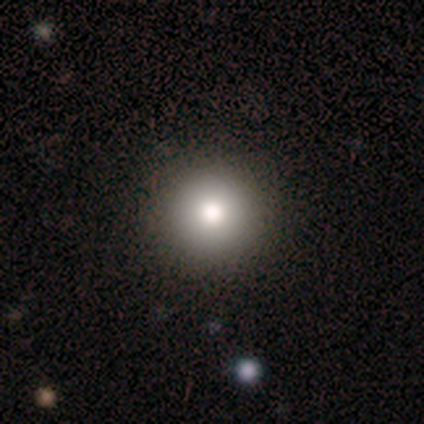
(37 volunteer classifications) smooth_or_featured: smooth (p=0.86) [alt: featured or disk p=0.08]
how_rounded: round (p=1.00)
merging: none (p=0.86) [alt: minor disturbance p=0.09]